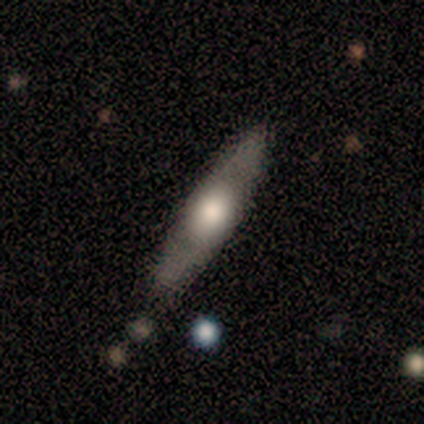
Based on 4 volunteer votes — Smooth or featured? featured or disk (75%)
Edge-on disk? yes (67%)
Edge-on bulge? rounded (100%)
Merging? none (50%)